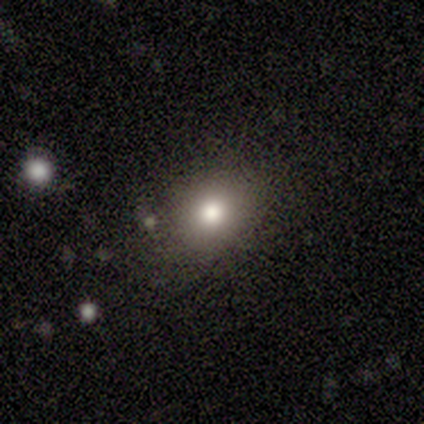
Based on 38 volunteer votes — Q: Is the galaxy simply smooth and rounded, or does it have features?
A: smooth — 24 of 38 (63%).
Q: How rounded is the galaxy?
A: in between — 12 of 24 (50%).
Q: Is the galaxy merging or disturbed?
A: none — 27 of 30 (90%).